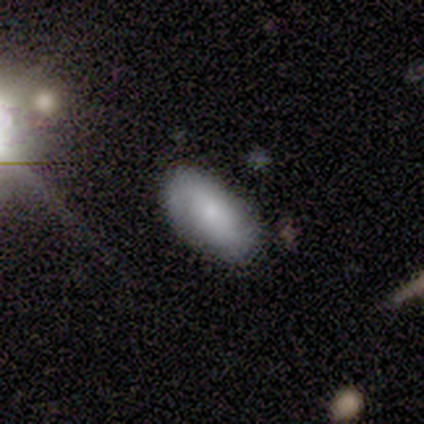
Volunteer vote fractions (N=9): A smooth galaxy with no disk features (89%) that is in between round and cigar-shaped (100%). Merging: none (67%).